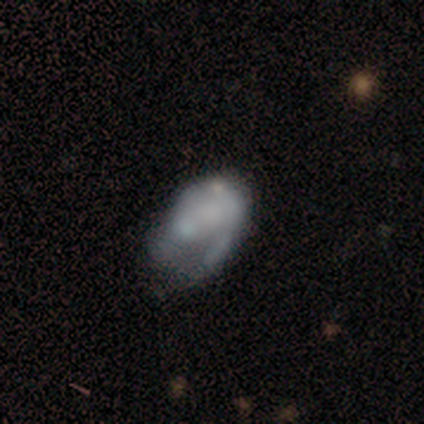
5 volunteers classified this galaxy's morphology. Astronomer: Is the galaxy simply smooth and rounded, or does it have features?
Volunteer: featured or disk — 60%.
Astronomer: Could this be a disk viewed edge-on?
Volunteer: no — 100%.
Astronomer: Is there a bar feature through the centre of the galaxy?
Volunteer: no — 100%.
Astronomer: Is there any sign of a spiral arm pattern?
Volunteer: no — 100%.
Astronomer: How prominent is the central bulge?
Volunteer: none — 67%.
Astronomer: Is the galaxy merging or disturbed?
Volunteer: major disturbance — 50%.